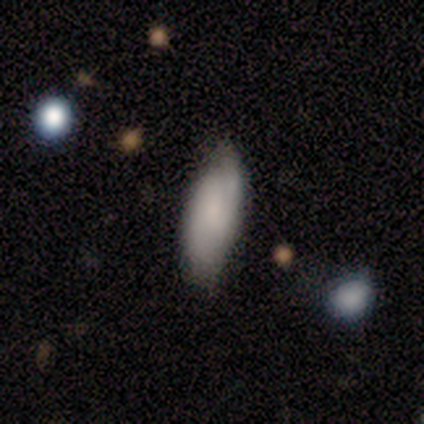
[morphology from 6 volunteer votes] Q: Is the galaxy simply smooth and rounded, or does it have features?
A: smooth — 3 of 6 (50%, tied with featured or disk).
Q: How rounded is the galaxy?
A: in between — 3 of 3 (100%).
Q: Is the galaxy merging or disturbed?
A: none — 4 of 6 (67%).